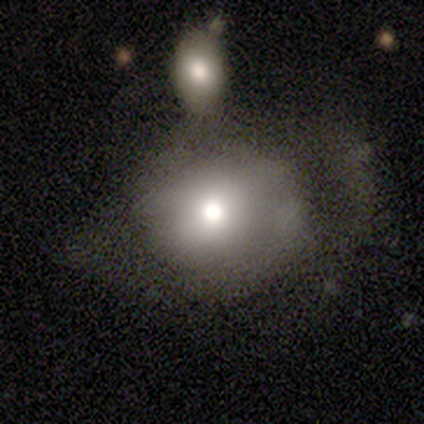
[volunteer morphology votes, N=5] smooth 60%, featured or disk 40%, star or artifact 0%. Down the decision tree: how rounded — round (67%); merging — none (40%, tied with merger).